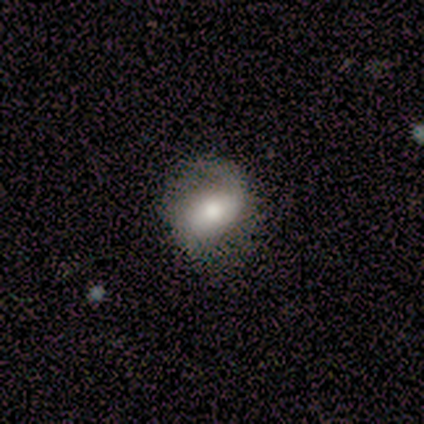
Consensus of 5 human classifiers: Smooth or featured: smooth — 60% (featured or disk — 40%)
How rounded: in between — 67% (round — 33%)
Merging: none — 80% (minor disturbance — 20%)